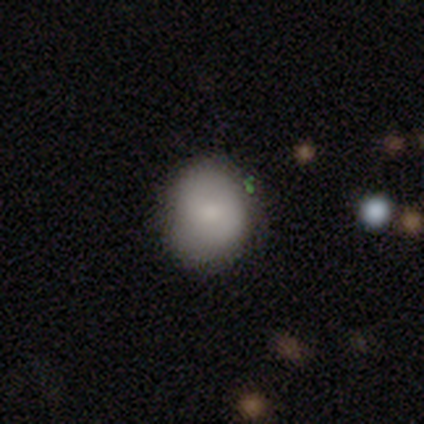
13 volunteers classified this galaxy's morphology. Smooth or featured?
  - smooth: 85% *
  - featured or disk: 8%
  - star or artifact: 8%
How rounded?
  - round: 82% *
  - in between: 18%
  - cigar-shaped: 0%
Merging?
  - none: 92% *
  - minor disturbance: 8%
  - major disturbance: 0%
  - merger: 0%